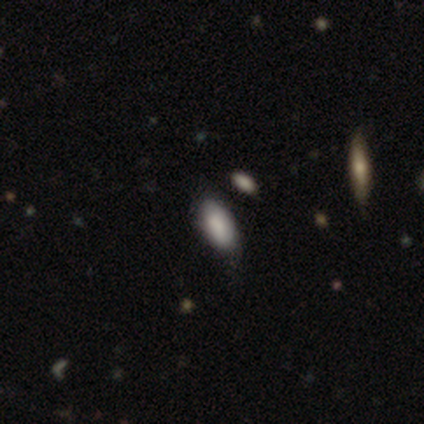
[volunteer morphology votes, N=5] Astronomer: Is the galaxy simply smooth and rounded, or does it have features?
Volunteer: smooth — 60%.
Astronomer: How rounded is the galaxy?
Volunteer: in between — 100%.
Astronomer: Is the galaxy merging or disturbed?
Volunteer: minor disturbance — 75%.